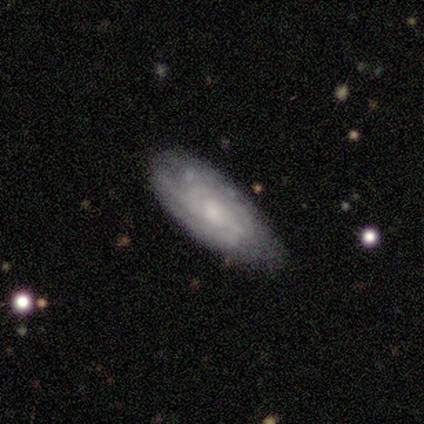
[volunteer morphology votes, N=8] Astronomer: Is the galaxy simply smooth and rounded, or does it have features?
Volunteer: featured or disk — 62%.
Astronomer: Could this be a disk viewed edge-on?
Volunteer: no — 80%.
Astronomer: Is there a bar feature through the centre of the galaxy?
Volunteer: no — 100%.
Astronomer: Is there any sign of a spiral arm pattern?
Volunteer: yes — 100%.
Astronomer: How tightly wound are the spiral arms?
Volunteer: tight — 50%, tied with medium at 50%.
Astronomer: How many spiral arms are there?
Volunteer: can't tell — 75%.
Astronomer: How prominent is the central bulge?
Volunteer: moderate — 75%.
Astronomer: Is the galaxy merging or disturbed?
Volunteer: none — 75%.